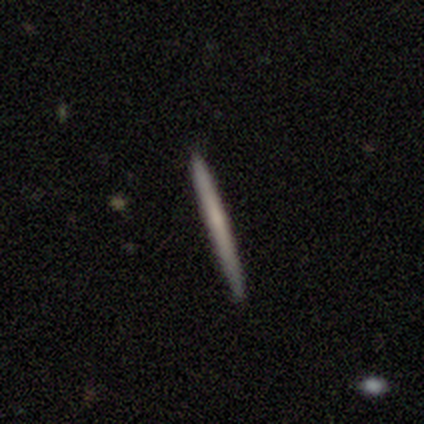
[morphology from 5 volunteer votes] smooth-or-featured: smooth: 60% | featured or disk: 20% | star or artifact: 20%
  how-rounded: cigar-shaped: 100% | round: 0% | in between: 0%
  merging: none: 75% | minor disturbance: 25% | major disturbance: 0% | merger: 0%